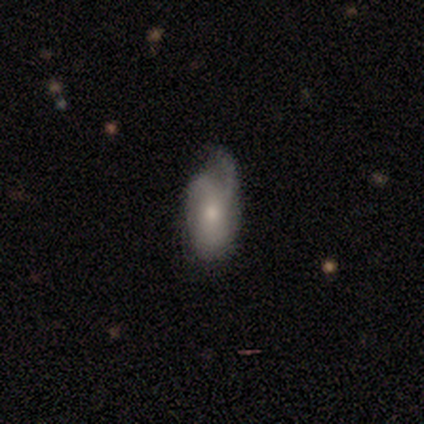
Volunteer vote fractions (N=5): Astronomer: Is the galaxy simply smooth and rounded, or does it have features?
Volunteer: smooth — 60%.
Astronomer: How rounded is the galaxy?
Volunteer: in between — 100%.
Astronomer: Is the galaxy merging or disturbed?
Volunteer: minor disturbance — 50%, tied with major disturbance at 50%.